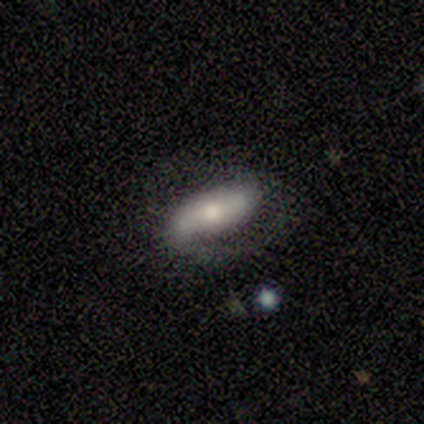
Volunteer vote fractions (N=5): Smooth or featured: smooth — 100%
How rounded: in between — 100%
Merging: none — 60% (minor disturbance — 20%)